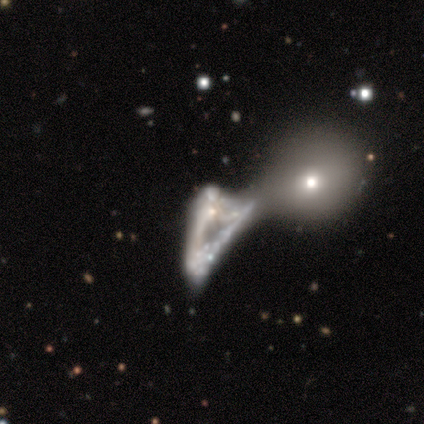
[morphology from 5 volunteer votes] Q: Smooth or featured?
A: smooth (60%); runner-up: featured or disk (40%)
Q: How rounded?
A: in between (67%); runner-up: round (33%)
Q: Merging?
A: none (40%); tied with: merger (40%)